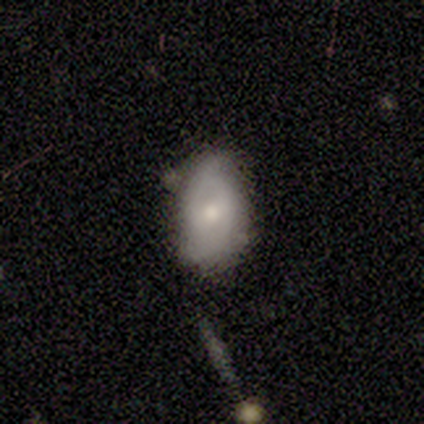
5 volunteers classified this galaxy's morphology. Smooth or featured: smooth — 80% (featured or disk — 20%)
How rounded: in between — 100%
Merging: minor disturbance — 60% (none — 40%)